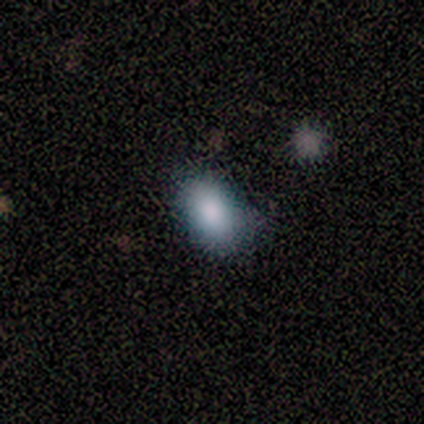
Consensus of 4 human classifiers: This is clearly a smooth galaxy (100%). How rounded: clearly in between (100%). Merging: clearly none (100%).